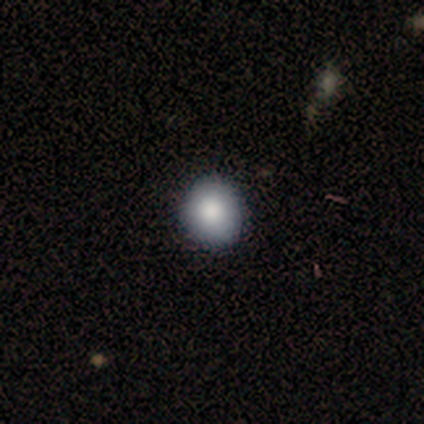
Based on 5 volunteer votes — Smooth or featured: smooth — 80% (featured or disk — 20%)
How rounded: round — 75% (in between — 25%)
Merging: none — 80% (minor disturbance — 20%)